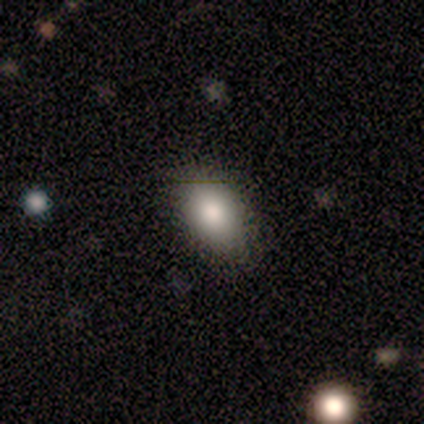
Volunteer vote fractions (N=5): Volunteers were most divided on "merging" (2-way tie): none: 50%, minor disturbance: 50%, major disturbance: 0%, merger: 0%. More confident: how rounded — in between (100%); smooth or featured — smooth (80%).